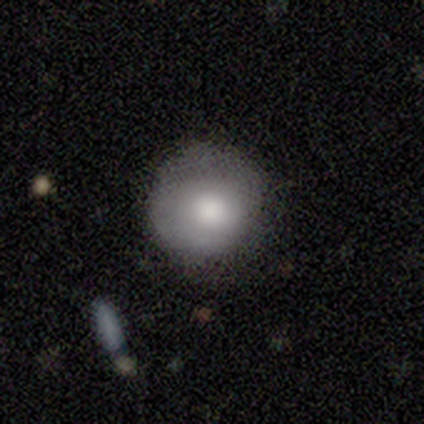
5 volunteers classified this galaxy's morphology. A smooth galaxy with no disk features (80%) that is round (75%).

Vote fractions:
- Smooth or featured? smooth: 80% / featured or disk: 20% / star or artifact: 0%
- How rounded? round: 75% / in between: 25% / cigar-shaped: 0%
- Merging? none: 60% / minor disturbance: 40% / major disturbance: 0% / merger: 0%